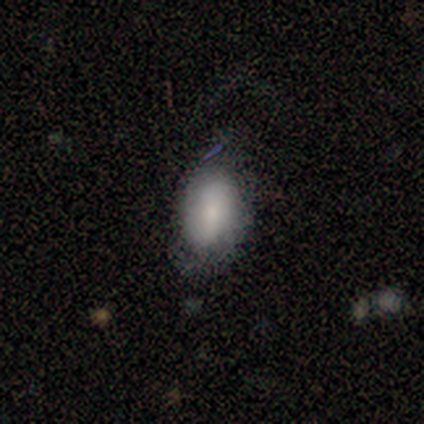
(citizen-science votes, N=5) Q: Smooth or featured?
A: smooth (60%); runner-up: featured or disk (40%)
Q: How rounded?
A: in between (100%)
Q: Merging?
A: none (40%); tied with: minor disturbance (40%)